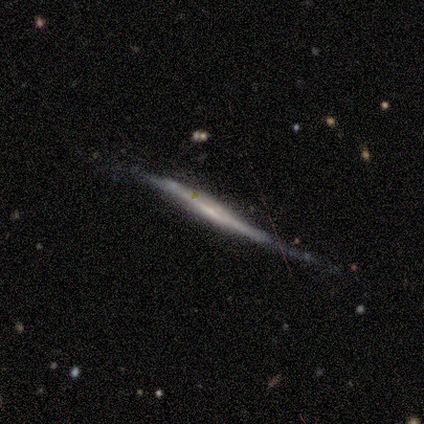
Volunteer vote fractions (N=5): smooth-or-featured: featured or disk: 80% | smooth: 20% | star or artifact: 0%
  disk-edge-on: yes: 100% | no: 0%
    edge-on-bulge: none: 50% (tied) | rounded: 50% (tied) | boxy: 0%
  merging: none: 60% | minor disturbance: 20% | major disturbance: 20% | merger: 0%